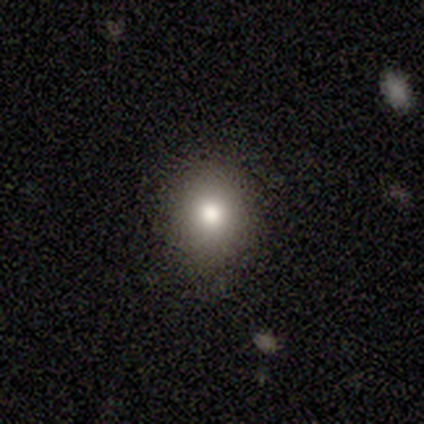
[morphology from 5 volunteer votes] Smooth or featured? 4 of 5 (80%) said smooth. How rounded? 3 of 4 (75%) said round. Merging? 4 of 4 (100%) said none.